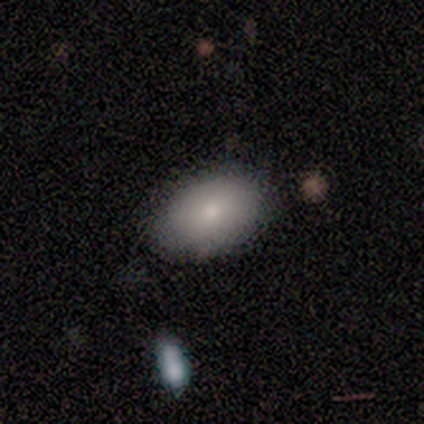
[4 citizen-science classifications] Volunteers were most divided on "merging": none: 50%, minor disturbance: 25%, major disturbance: 25%, merger: 0%. More confident: smooth or featured — smooth (100%); how rounded — in between (100%).